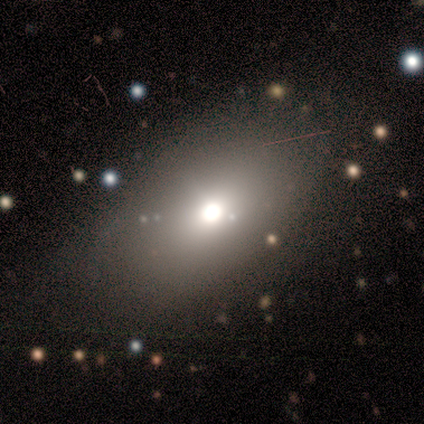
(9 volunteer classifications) This is likely a smooth galaxy (78%). How rounded: clearly in between (86%). Merging: likely none (75%).